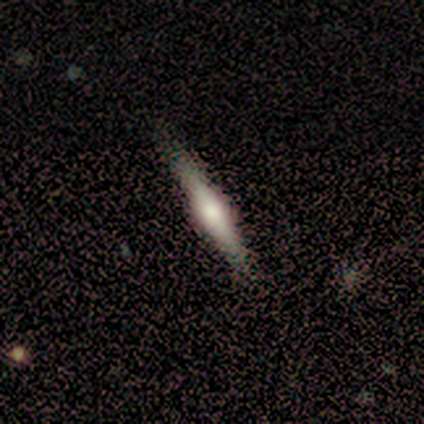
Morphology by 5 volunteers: Smooth or featured? 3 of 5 (60%) said smooth. How rounded? 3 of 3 (100%) said cigar-shaped. Merging? 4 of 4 (100%) said none.